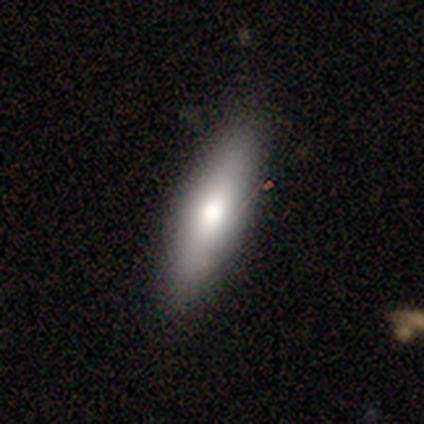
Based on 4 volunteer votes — smooth-or-featured: smooth: 75% | featured or disk: 25% | star or artifact: 0%
  how-rounded: cigar-shaped: 67% | in between: 33% | round: 0%
  merging: none: 75% | minor disturbance: 25% | major disturbance: 0% | merger: 0%